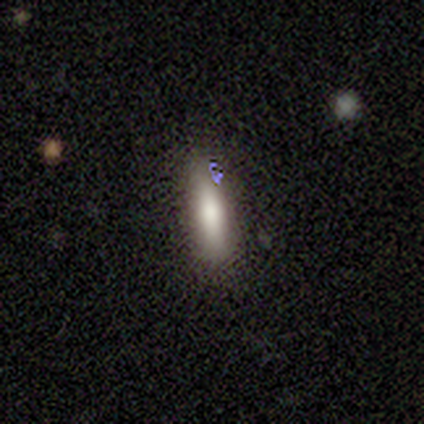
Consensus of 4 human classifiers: smooth 100%, featured or disk 0%, star or artifact 0%. Down the decision tree: how rounded — in between (50%, tied with cigar-shaped); merging — none (100%).